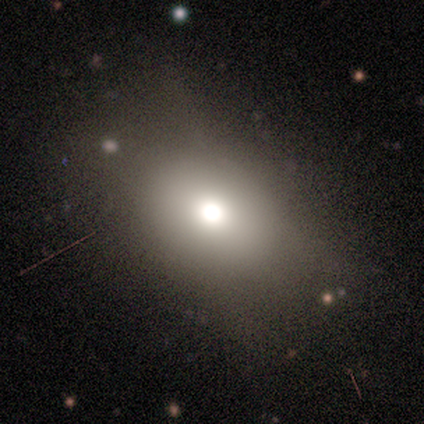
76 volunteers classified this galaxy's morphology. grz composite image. It shows a smooth galaxy with no disk features (71%) that is in between round and cigar-shaped (74%). Merging: none (30%).